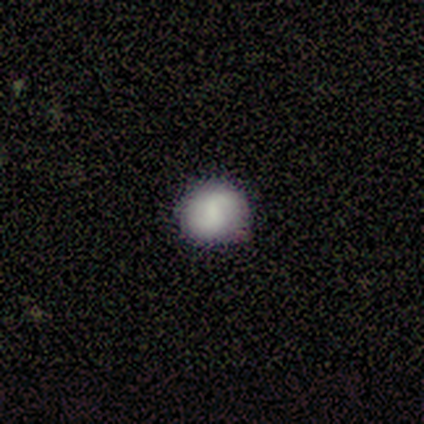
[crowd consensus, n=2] Volunteers were most divided on "how rounded" (2-way tie): round: 50%, in between: 50%, cigar-shaped: 0%. More confident: smooth or featured — smooth (100%); merging — minor disturbance (100%).